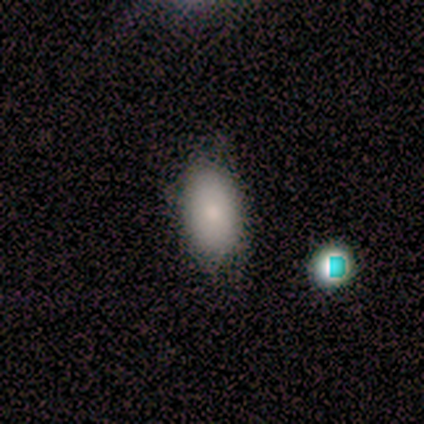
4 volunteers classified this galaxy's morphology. smooth 75%, featured or disk 25%, star or artifact 0%. Down the decision tree: how rounded — in between (100%); merging — minor disturbance (50%).